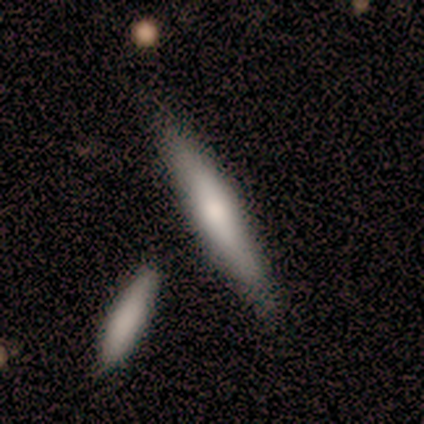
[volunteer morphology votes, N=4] Smooth or featured? 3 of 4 (75%) said smooth. How rounded? 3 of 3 (100%) said cigar-shaped. Merging? 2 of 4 (50%, tied with minor disturbance) said none.